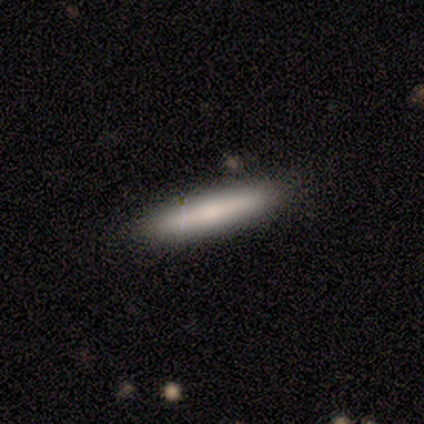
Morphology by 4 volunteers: Q: Smooth or featured?
A: featured or disk (75%); runner-up: smooth (25%)
Q: Edge-on disk?
A: yes (67%); runner-up: no (33%)
Q: Edge-on bulge?
A: none (100%)
Q: Merging?
A: none (75%); runner-up: minor disturbance (25%)